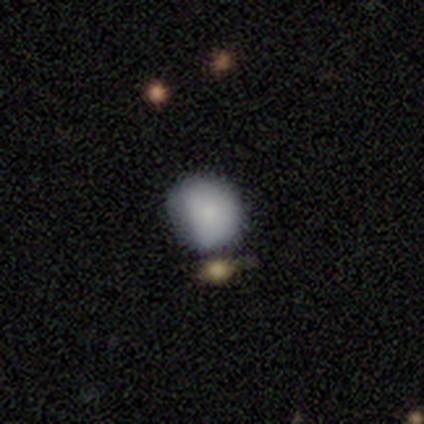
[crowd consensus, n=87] Smooth or featured? 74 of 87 (85%) said smooth. How rounded? 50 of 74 (68%) said round. Merging? 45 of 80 (56%) said none.